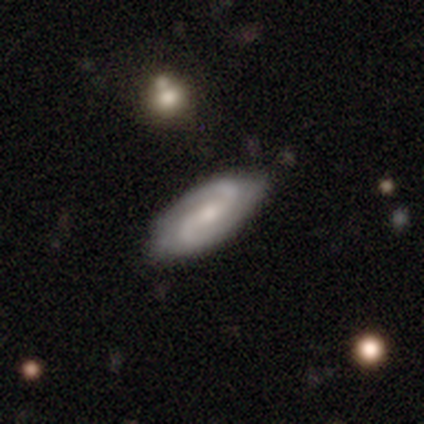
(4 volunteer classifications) Smooth or featured: featured or disk — 100%
Edge-on disk: no — 100%
Bar: weak — 50% (tied with no — 50%)
Spiral arms: yes — 100%
Spiral winding: medium — 75% (tight — 25%)
Spiral arm count: 2 — 100%
Bulge size: small — 100%
Merging: none — 100%